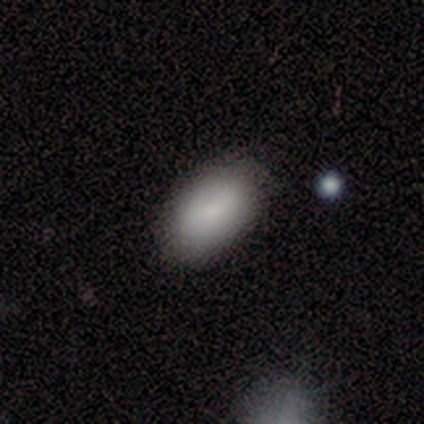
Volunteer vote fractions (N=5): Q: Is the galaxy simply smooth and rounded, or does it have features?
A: smooth — 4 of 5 (80%).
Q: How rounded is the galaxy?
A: in between — 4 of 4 (100%).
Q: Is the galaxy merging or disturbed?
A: none — 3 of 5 (60%).